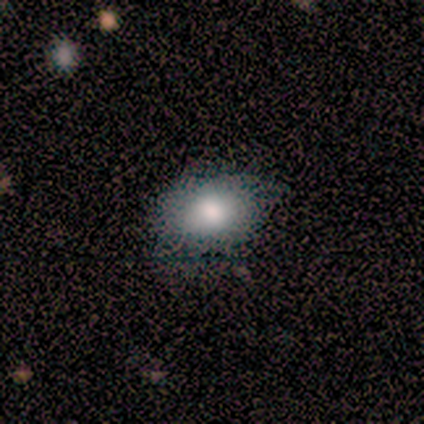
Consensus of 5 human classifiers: smooth 60%, star or artifact 40%, featured or disk 0%. Down the decision tree: how rounded — in between (100%); merging — none (100%).